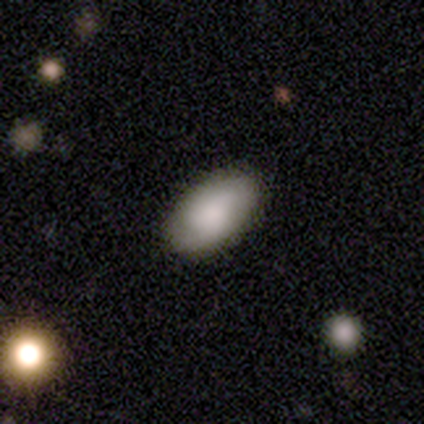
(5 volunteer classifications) Morphology: type=smooth (80%); roundness=in between (100%); merging=none (80%).